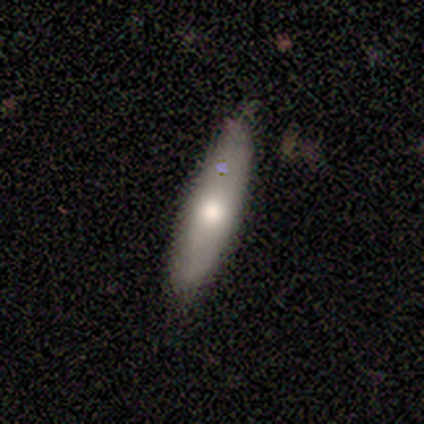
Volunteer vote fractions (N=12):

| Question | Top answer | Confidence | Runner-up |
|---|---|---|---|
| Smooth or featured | smooth | 75% | featured or disk (25%) |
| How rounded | cigar-shaped | 67% | in between (33%) |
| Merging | none | 67% | minor disturbance (25%) |